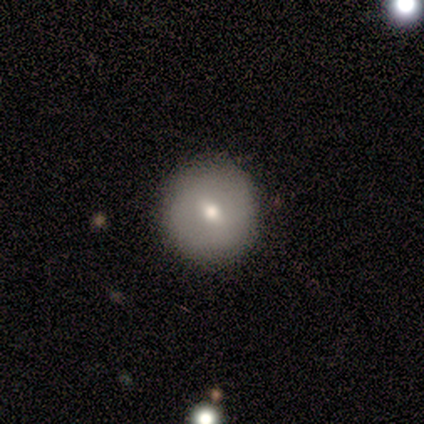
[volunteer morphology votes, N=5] type=smooth (40%, tied with featured or disk); roundness=round (100%); merging=none (75%).